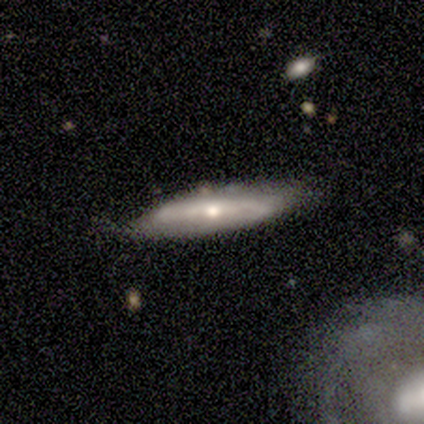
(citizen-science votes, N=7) Smooth or featured: featured or disk — 71% (smooth — 29%)
Edge-on disk: yes — 60% (no — 40%)
Edge-on bulge: rounded — 100%
Merging: none — 86% (minor disturbance — 14%)